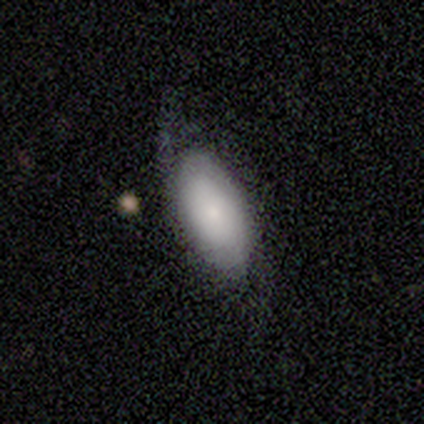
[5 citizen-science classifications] smooth_or_featured: featured or disk (p=0.60) [alt: smooth p=0.40]
disk_edge_on: no (p=1.00)
bar: no (p=1.00)
has_spiral_arms: no (p=1.00)
bulge_size: small (p=0.67) [alt: large p=0.33]
merging: minor disturbance (p=0.60) [alt: none p=0.40]